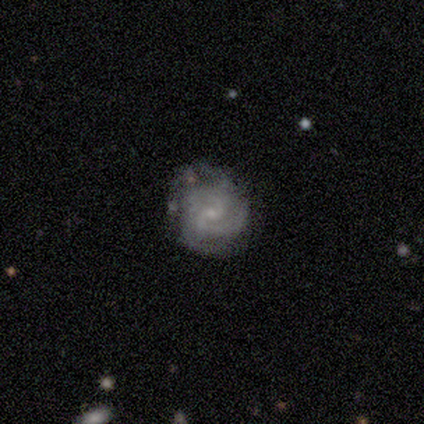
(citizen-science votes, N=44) Volunteers were most divided on "spiral winding": tight: 59%, medium: 41%, loose: 0%. Remaining: edge-on disk — no (100%); smooth or featured — featured or disk (98%); spiral arms — yes (95%); bulge size — small (74%); bar — no (70%); merging — none (66%); spiral arm count — 2 (46%).